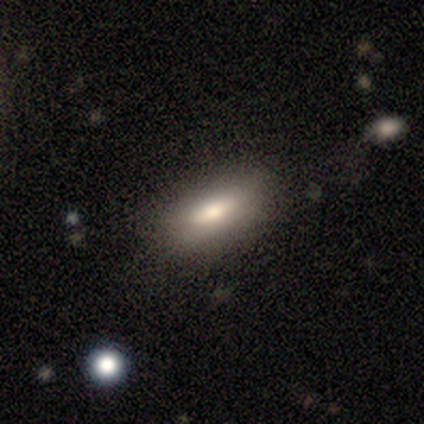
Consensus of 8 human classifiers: Volunteers were most divided on "smooth or featured": smooth: 62%, featured or disk: 25%, star or artifact: 12%. More confident: merging — none (86%); how rounded — in between (80%).